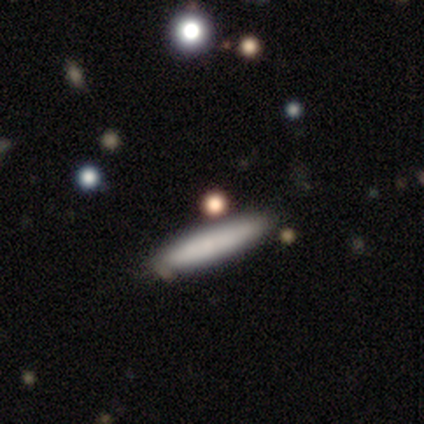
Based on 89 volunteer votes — Smooth or featured: smooth — 72% (star or artifact — 15%)
How rounded: cigar-shaped — 95% (in between — 5%)
Merging: none — 79% (minor disturbance — 20%)